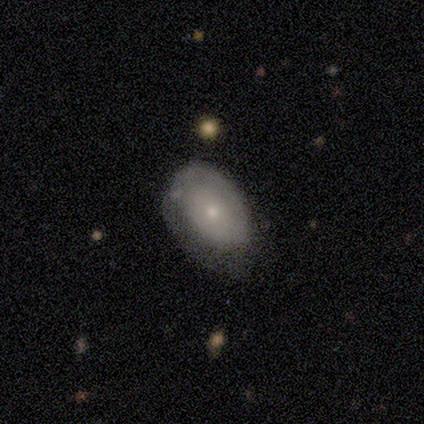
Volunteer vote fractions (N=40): A smooth galaxy with no disk features (60%) that is in between round and cigar-shaped (92%).

Vote fractions:
- Smooth or featured? smooth: 60% / featured or disk: 38% / star or artifact: 2%
- How rounded? in between: 92% / round: 8% / cigar-shaped: 0%
- Merging? minor disturbance: 33% / none: 28% / major disturbance: 26% / merger: 3%